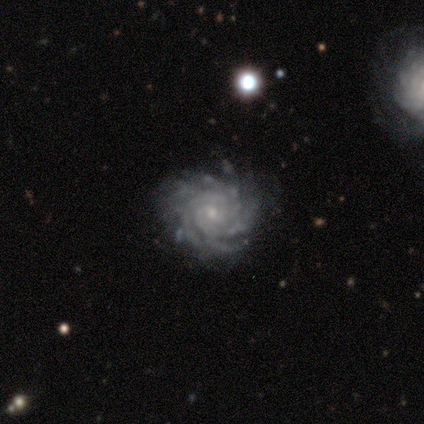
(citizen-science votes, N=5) Smooth or featured? featured or disk (100%)
Edge-on disk? no (100%)
Bar? no (100%)
Spiral arms? yes (100%)
Spiral winding? tight (100%)
Spiral arm count? can't tell (40%)
Bulge size? small (100%)
Merging? none (80%)